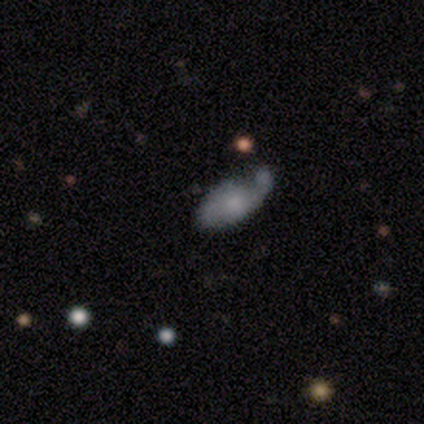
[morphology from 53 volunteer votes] A featured or disk galaxy (60%) with no bar (87%), 2 (50%) loose (44%) spiral arms (58%) and a small central bulge (48%).

Vote fractions:
- Smooth or featured? featured or disk: 60% / smooth: 34% / star or artifact: 6%
- Edge-on disk? no: 97% / yes: 3%
- Bar? no: 87% / weak: 13% / strong: 0%
- Spiral arms? yes: 58% / no: 42%
- Spiral winding? loose: 44% / tight: 28% / medium: 28%
- Spiral arm count? 2: 50% / 1: 33% / can't tell: 17% / 3: 0% / 4: 0% / more than 4: 0%
- Bulge size? small: 48% / none: 26% / moderate: 23% / large: 3% / dominant: 0%
- Merging? none: 36% / minor disturbance: 32% / major disturbance: 20% / merger: 12%